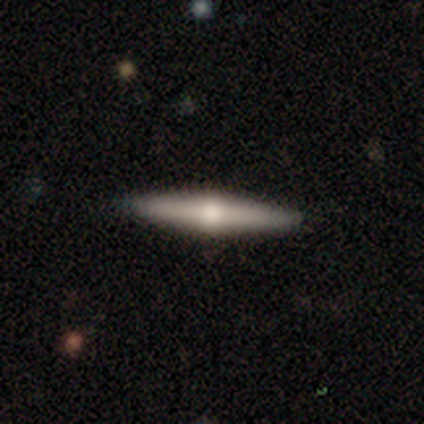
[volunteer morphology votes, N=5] type=featured or disk (80%); edge-on=yes (100%); edge-on bulge=rounded (100%); merging=none (100%).